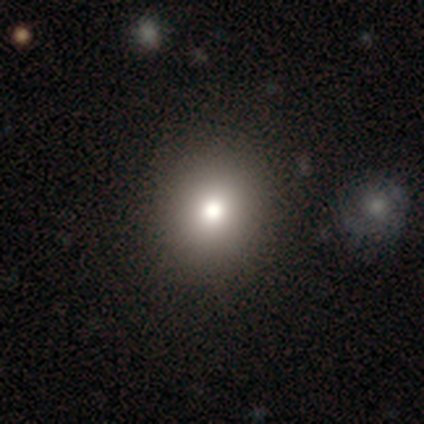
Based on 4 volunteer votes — smooth-or-featured: smooth: 75% | star or artifact: 25% | featured or disk: 0%
  how-rounded: round: 100% | in between: 0% | cigar-shaped: 0%
  merging: none: 67% | merger: 33% | minor disturbance: 0% | major disturbance: 0%